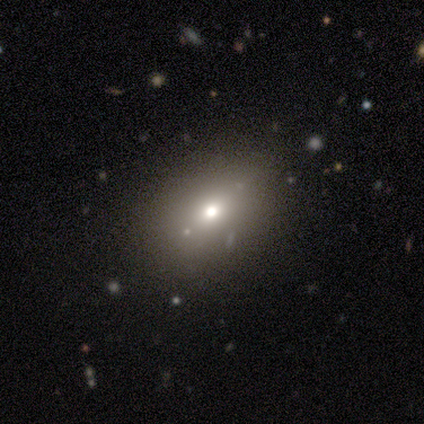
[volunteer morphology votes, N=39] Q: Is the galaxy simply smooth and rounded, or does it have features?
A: smooth — 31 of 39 (79%).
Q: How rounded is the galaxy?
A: in between — 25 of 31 (81%).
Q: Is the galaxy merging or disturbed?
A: none — 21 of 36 (58%).